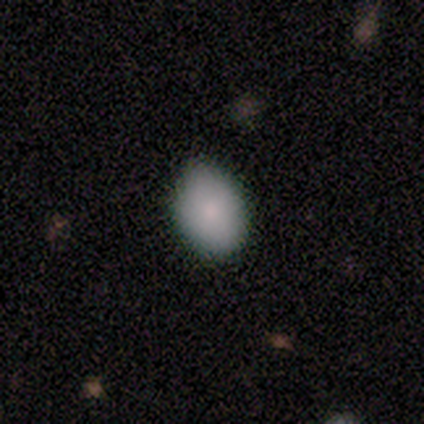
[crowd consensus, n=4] Overall: smooth (75%). How rounded: in between (100%). Merging: none (50%, tied with minor disturbance).